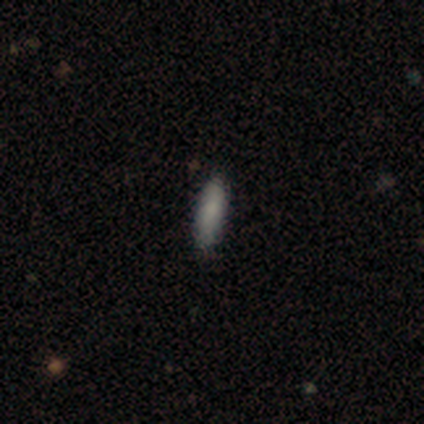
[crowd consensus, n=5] Volunteers were most divided on "how rounded" (2-way tie): in between: 50%, cigar-shaped: 50%, round: 0%. More confident: merging — none (100%); smooth or featured — smooth (80%).